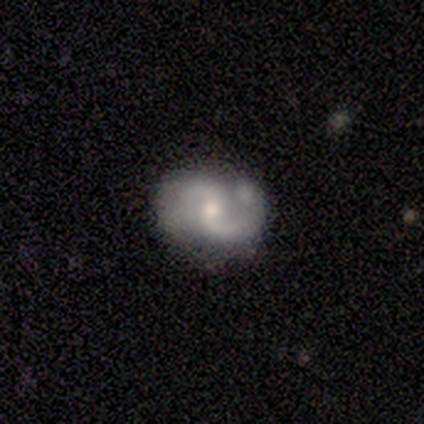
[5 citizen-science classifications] Smooth or featured: featured or disk — 100%
Edge-on disk: no — 100%
Bar: weak — 60% (no — 40%)
Spiral arms: yes — 80% (no — 20%)
Spiral winding: medium — 75% (loose — 25%)
Spiral arm count: 2 — 100%
Bulge size: moderate — 60% (small — 40%)
Merging: none — 60% (minor disturbance — 40%)